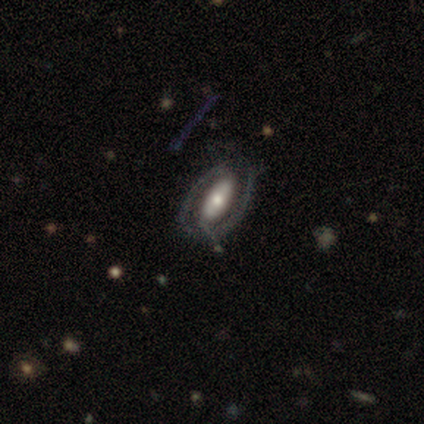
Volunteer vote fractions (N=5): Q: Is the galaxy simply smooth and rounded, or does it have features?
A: smooth — 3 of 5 (60%).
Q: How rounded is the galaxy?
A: in between — 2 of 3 (67%).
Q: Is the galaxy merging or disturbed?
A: none — 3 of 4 (75%).